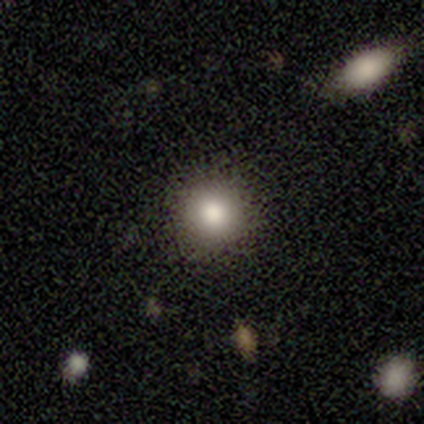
Morphology: type=smooth (100%); roundness=round (100%); merging=none (80%).